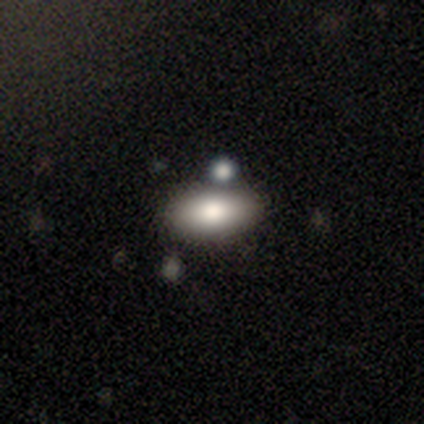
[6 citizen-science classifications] Morphology: type=smooth (100%); roundness=in between (100%); merging=none (50%).